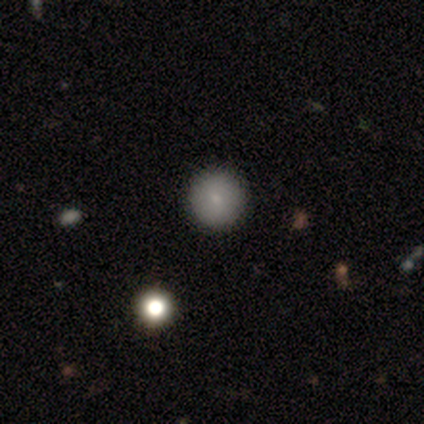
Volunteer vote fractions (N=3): Smooth or featured?
  - star or artifact: 67% *
  - featured or disk: 33%
  - smooth: 0%